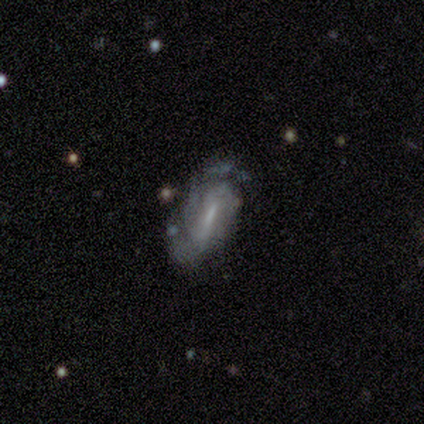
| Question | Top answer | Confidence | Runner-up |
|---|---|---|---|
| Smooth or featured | featured or disk | 80% | smooth (20%) |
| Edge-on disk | no | 100% | — |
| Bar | strong | 50% | tied: weak (50%) |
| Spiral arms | yes | 100% | — |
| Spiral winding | tight | 50% | medium (25%) |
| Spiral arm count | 2 | 50% | tied: can't tell (50%) |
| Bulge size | moderate | 75% | small (25%) |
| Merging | none | 60% | minor disturbance (20%) |